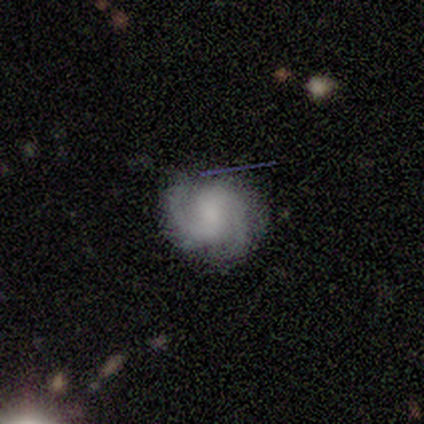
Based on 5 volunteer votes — Smooth or featured? featured or disk (100%)
Edge-on disk? no (100%)
Bar? no (60%)
Spiral arms? yes (100%)
Spiral winding? medium (60%)
Spiral arm count? 2 (80%)
Bulge size? moderate (40%)
Merging? none (80%)